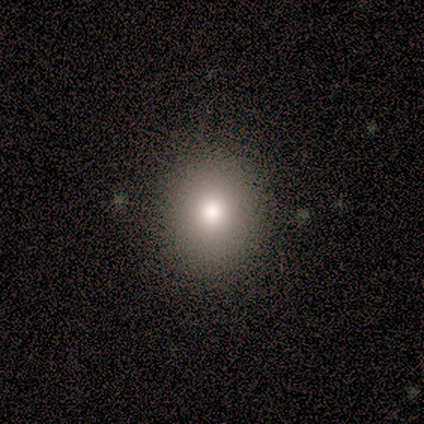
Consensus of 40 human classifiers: Smooth or featured: smooth — 78% (featured or disk — 15%)
How rounded: round — 77% (in between — 23%)
Merging: none — 68% (minor disturbance — 5%)